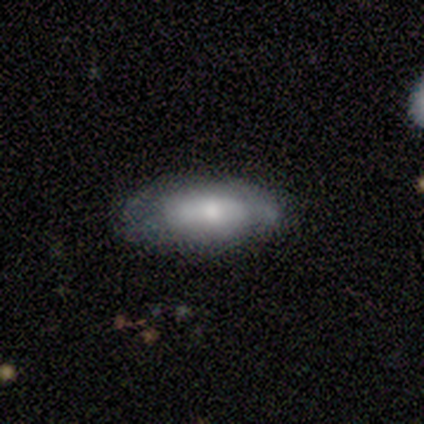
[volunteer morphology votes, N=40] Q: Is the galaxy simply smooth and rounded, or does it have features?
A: smooth — 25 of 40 (62%).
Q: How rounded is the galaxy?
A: in between — 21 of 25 (84%).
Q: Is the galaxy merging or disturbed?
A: none — 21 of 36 (58%).